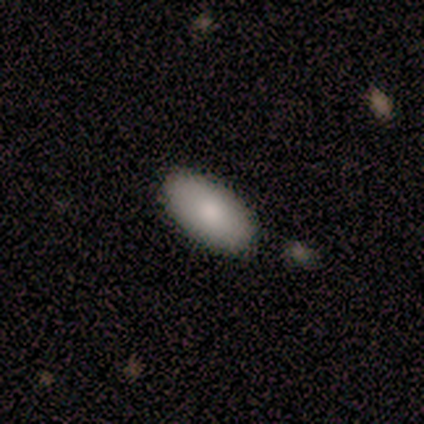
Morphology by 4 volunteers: A smooth galaxy with no disk features (100%) that is in between round and cigar-shaped (100%).

Vote fractions:
- Smooth or featured? smooth: 100% / featured or disk: 0% / star or artifact: 0%
- How rounded? in between: 100% / round: 0% / cigar-shaped: 0%
- Merging? none: 100% / minor disturbance: 0% / major disturbance: 0% / merger: 0%